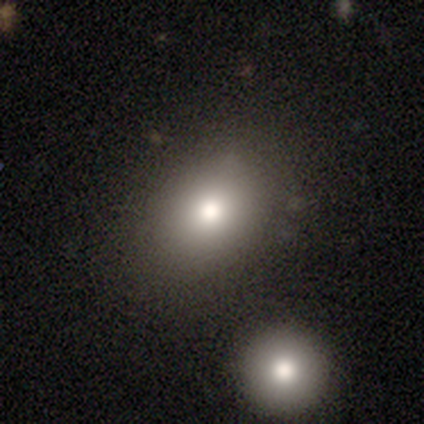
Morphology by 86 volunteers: Smooth or featured?
  - smooth: 72% *
  - star or artifact: 15%
  - featured or disk: 13%
How rounded?
  - in between: 71% *
  - round: 29%
  - cigar-shaped: 0%
Merging?
  - none: 70% *
  - minor disturbance: 16%
  - merger: 10%
  - major disturbance: 4%